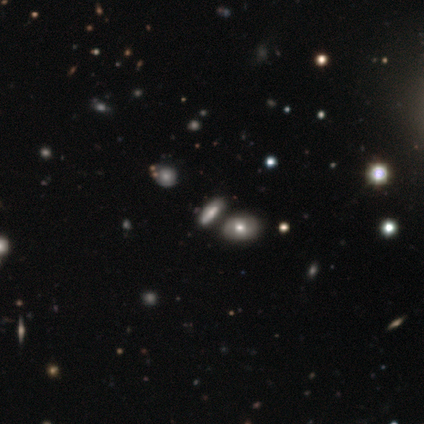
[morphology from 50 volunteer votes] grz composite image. It shows a smooth galaxy with no disk features (46%) that is in between round and cigar-shaped (74%). Merging: none (52%).